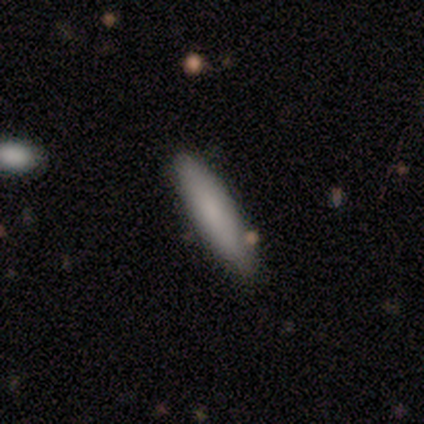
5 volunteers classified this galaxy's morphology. Smooth or featured?
  - smooth: 100% *
  - featured or disk: 0%
  - star or artifact: 0%
How rounded?
  - cigar-shaped: 60% *
  - in between: 40%
  - round: 0%
Merging?
  - none: 80% *
  - minor disturbance: 20%
  - major disturbance: 0%
  - merger: 0%